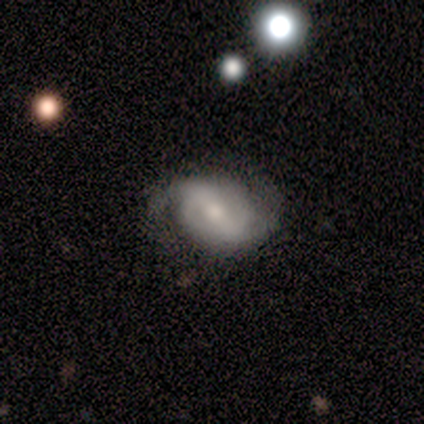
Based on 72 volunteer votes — This is likely a featured or disk galaxy (71%). It is clearly not viewed edge-on (96%). Bar: possibly strong (53%). Spiral arm pattern: clearly yes (92%). Spiral arm count: clearly 2 (84%). Spiral winding: possibly medium (49%). Central bulge: possibly moderate (49%). Merging: likely none (68%).